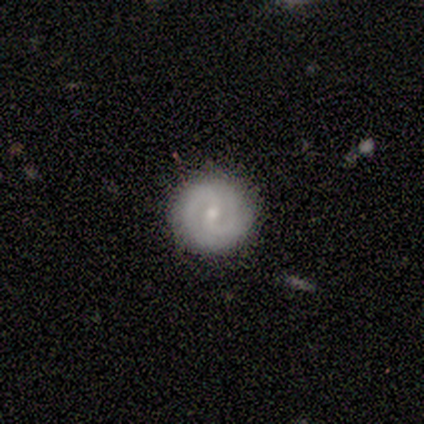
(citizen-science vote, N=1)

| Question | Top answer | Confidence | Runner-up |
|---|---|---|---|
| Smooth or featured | featured or disk | 100% | — |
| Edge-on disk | no | 100% | — |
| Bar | strong | 100% | — |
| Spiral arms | no | 100% | — |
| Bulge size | small | 100% | — |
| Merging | none | 100% | — |